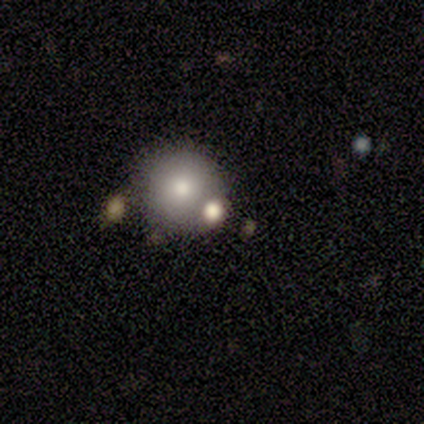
Morphology: type=smooth (40%, tied with featured or disk); roundness=round (100%); merging=none (50%).